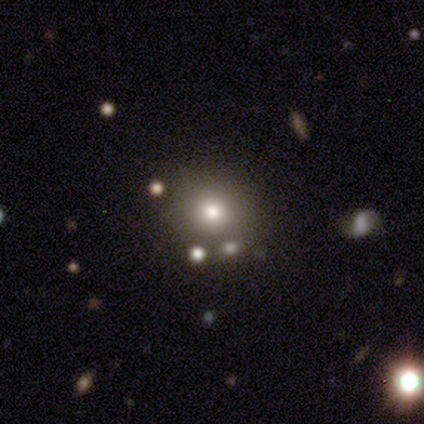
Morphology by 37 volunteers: smooth_or_featured: smooth (p=0.57) [alt: star or artifact p=0.30]
how_rounded: round (p=0.95) [alt: in between p=0.05]
merging: none (p=0.73) [alt: merger p=0.15]